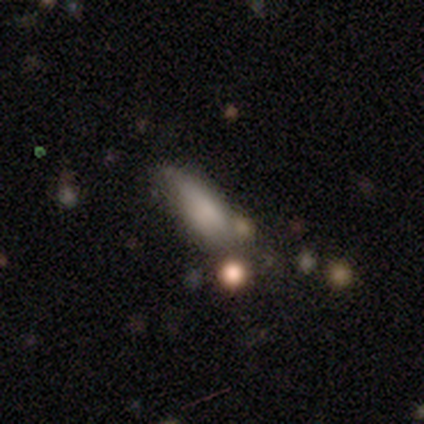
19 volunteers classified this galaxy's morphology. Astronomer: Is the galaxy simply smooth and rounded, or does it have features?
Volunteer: smooth — 53% (runner-up: star or artifact, 32%).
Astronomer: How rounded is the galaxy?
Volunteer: in between — 70%.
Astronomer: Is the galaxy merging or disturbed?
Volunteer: minor disturbance — 46% (runner-up: none, 31%).